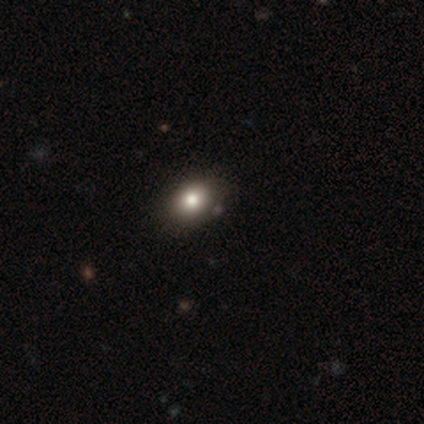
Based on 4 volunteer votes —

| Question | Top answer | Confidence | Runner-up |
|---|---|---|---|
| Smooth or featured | smooth | 50% | tied: featured or disk (50%) |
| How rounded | round | 100% | — |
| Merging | none | 75% | minor disturbance (25%) |